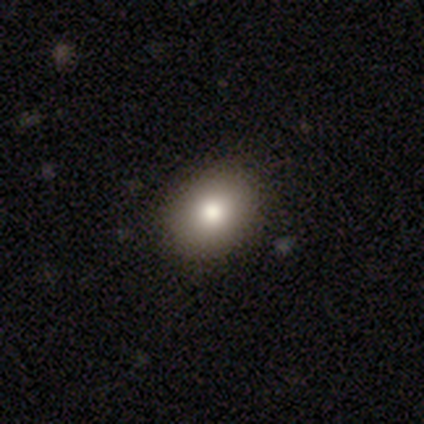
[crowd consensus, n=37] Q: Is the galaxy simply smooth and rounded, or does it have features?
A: smooth — 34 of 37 (92%).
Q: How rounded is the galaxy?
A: round — 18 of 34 (53%).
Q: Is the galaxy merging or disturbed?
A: none — 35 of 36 (97%).